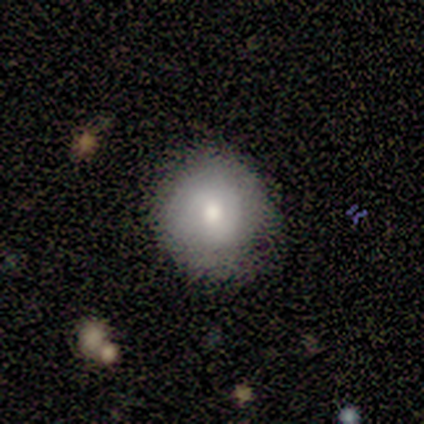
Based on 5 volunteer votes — This appears to be a smooth galaxy with no disk features (100%) that is round (60%). Merging: none (100%).